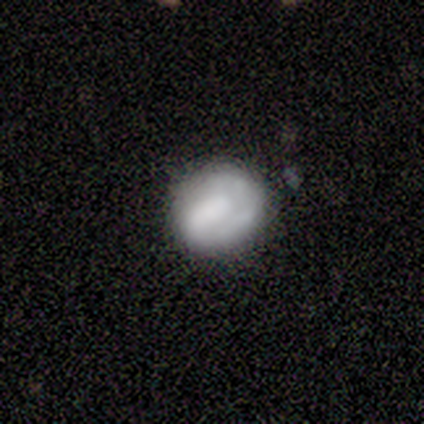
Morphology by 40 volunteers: smooth_or_featured: smooth (p=0.47) [tied with: featured or disk p=0.47]
how_rounded: round (p=0.74) [alt: in between p=0.26]
merging: none (p=0.71) [alt: minor disturbance p=0.24]